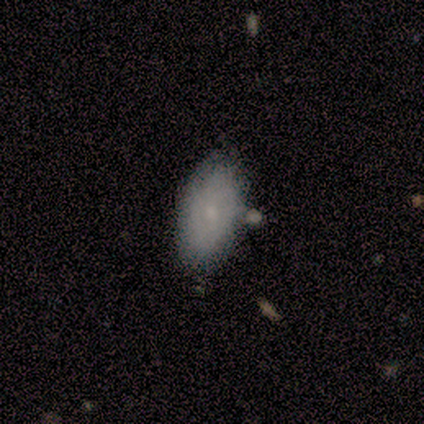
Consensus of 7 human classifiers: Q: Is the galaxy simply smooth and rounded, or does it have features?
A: smooth — 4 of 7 (57%).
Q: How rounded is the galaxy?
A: in between — 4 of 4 (100%).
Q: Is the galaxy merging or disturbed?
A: none — 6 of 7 (86%).